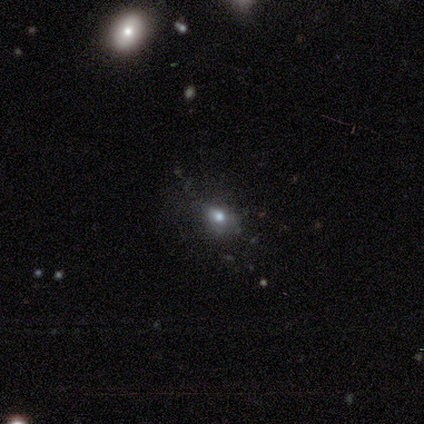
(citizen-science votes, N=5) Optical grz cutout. It shows a smooth galaxy with no disk features (80%) that is in between round and cigar-shaped (75%). Merging: none (60%).